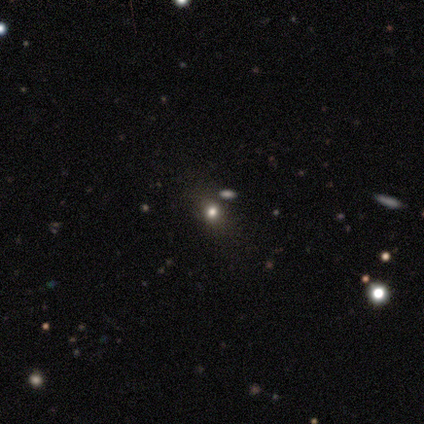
Overall: star or artifact (60%; smooth 20%).